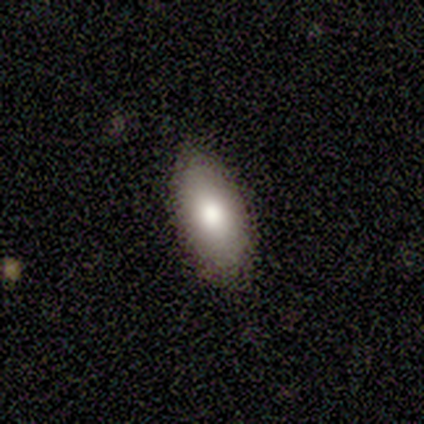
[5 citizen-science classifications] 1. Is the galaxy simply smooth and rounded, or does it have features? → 60% smooth, 20% featured or disk, 20% star or artifact.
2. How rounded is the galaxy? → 100% in between, 0% round, 0% cigar-shaped.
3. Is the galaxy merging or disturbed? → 100% none, 0% minor disturbance, 0% major disturbance, 0% merger.